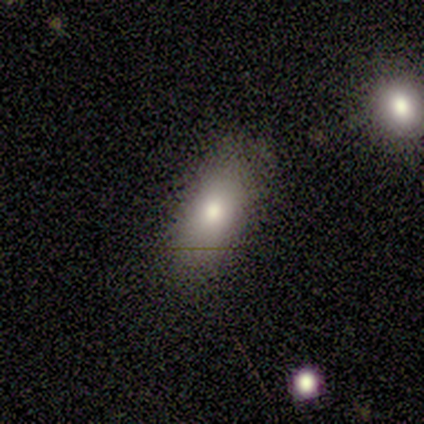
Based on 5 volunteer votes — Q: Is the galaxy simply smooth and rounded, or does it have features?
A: smooth — 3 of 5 (60%).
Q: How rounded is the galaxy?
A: in between — 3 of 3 (100%).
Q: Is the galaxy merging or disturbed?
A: none — 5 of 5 (100%).